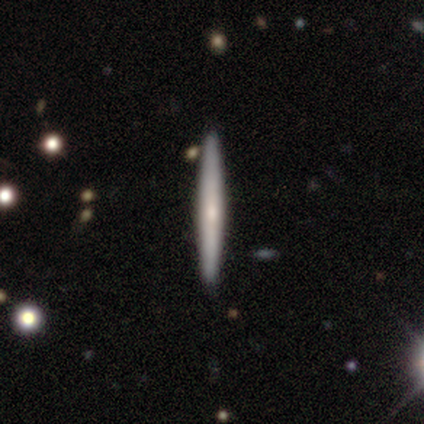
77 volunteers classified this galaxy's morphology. This is possibly a smooth galaxy (55%). How rounded: clearly cigar-shaped (98%). Merging: possibly none (45%).